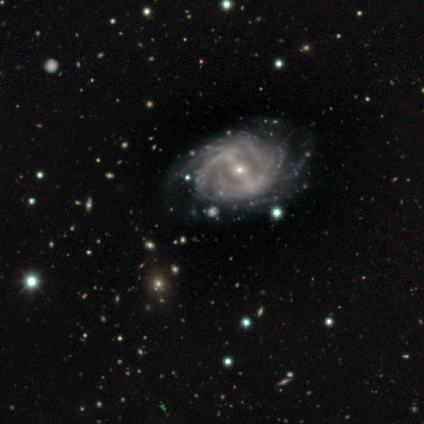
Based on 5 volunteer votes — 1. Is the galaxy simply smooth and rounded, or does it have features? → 80% featured or disk, 20% star or artifact, 0% smooth.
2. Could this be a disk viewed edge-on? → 100% no, 0% yes.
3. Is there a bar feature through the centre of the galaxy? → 50% weak, 25% strong, 25% no.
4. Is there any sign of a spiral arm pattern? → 100% yes, 0% no.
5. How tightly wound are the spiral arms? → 75% tight, 25% medium, 0% loose.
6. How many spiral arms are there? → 50% 2, 25% more than 4, 25% can't tell, 0% 1, 0% 3, 0% 4.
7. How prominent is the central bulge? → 75% small, 25% moderate, 0% dominant, 0% large, 0% none.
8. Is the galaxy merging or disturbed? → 75% none, 25% minor disturbance, 0% major disturbance, 0% merger.